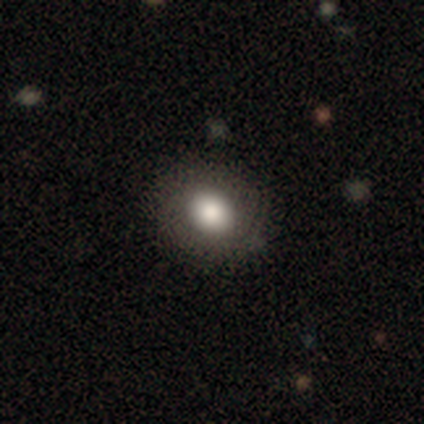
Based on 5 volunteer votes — Volunteers were most divided on "smooth or featured" (2-way tie): smooth: 40%, star or artifact: 40%, featured or disk: 20%; "how rounded" (2-way tie): round: 50%, in between: 50%, cigar-shaped: 0%. More confident: merging — none (67%).